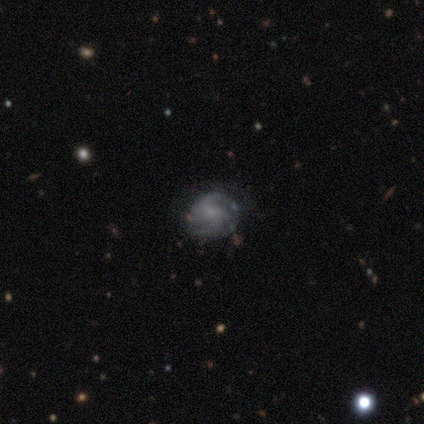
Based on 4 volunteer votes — Smooth or featured?
  - featured or disk: 100% *
  - smooth: 0%
  - star or artifact: 0%
Edge-on disk?
  - no: 100% *
  - yes: 0%
Bar?
  - weak: 75% *
  - no: 25%
  - strong: 0%
Spiral arms?
  - yes: 100% *
  - no: 0%
Spiral winding?
  - tight: 50% * (tied)
  - medium: 50% * (tied)
  - loose: 0%
Spiral arm count?
  - 2: 50% *
  - 4: 25%
  - can't tell: 25%
  - 1: 0%
  - 3: 0%
  - more than 4: 0%
Bulge size?
  - none: 50% *
  - moderate: 25%
  - small: 25%
  - dominant: 0%
  - large: 0%
Merging?
  - none: 100% *
  - minor disturbance: 0%
  - major disturbance: 0%
  - merger: 0%